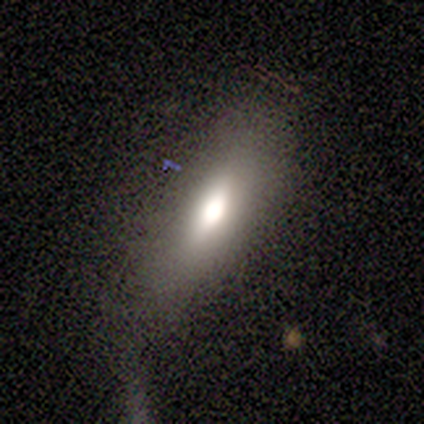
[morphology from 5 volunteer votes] Smooth or featured: smooth — 80% (featured or disk — 20%)
How rounded: in between — 50% (tied with cigar-shaped — 50%)
Merging: none — 60% (minor disturbance — 20%)